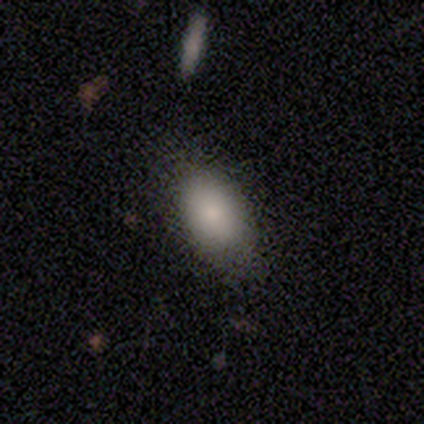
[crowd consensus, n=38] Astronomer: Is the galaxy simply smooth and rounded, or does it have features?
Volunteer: smooth — 84%.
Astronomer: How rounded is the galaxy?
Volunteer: in between — 78%.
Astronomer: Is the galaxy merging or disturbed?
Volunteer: none — 72%.